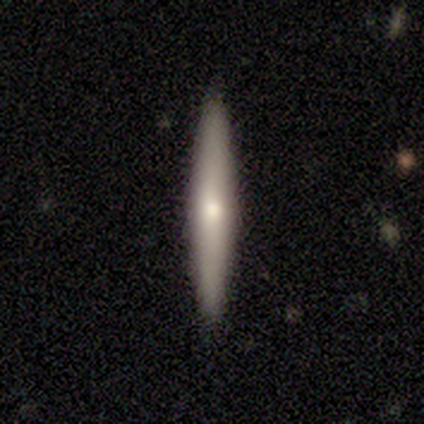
Consensus on every question: smooth or featured — smooth (100%); how rounded — cigar-shaped (100%); merging — none (100%).